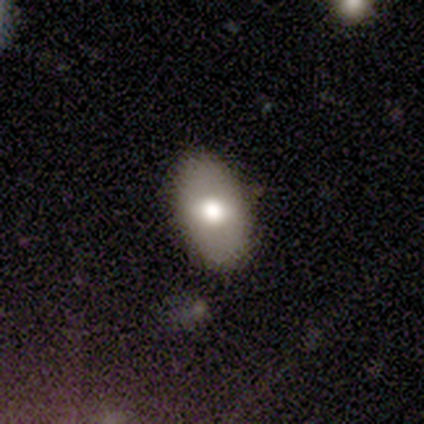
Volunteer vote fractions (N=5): A smooth galaxy with no disk features (60%) that is in between round and cigar-shaped (100%). Merging: none (100%).